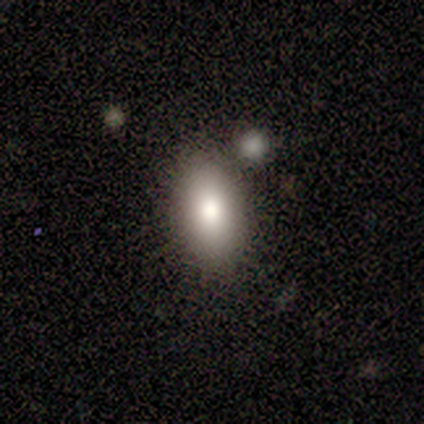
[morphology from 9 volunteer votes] Q: Smooth or featured?
A: smooth (89%); runner-up: star or artifact (11%)
Q: How rounded?
A: in between (100%)
Q: Merging?
A: none (88%); runner-up: merger (12%)